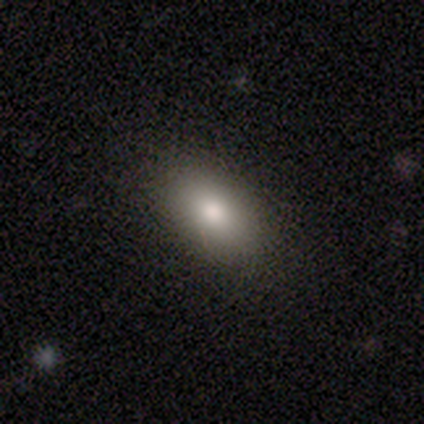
smooth 90%, featured or disk 8%, star or artifact 2%. Down the decision tree: how rounded — in between (94%); merging — none (72%).